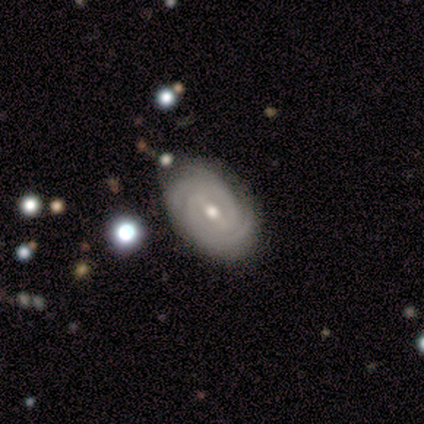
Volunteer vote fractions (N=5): This appears to be a featured or disk galaxy (60%) with a strong bar (67%), 2 (33%, tied with 3 and 4) tight (67%) spiral arms (100%) and a small central bulge (67%). Merging: none (80%).